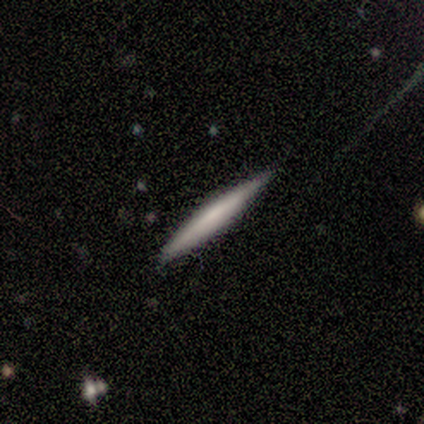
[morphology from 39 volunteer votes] smooth-or-featured: smooth: 51% | featured or disk: 49% | star or artifact: 0%
  how-rounded: cigar-shaped: 95% | in between: 5% | round: 0%
  merging: none: 90% | minor disturbance: 8% | merger: 3% | major disturbance: 0%